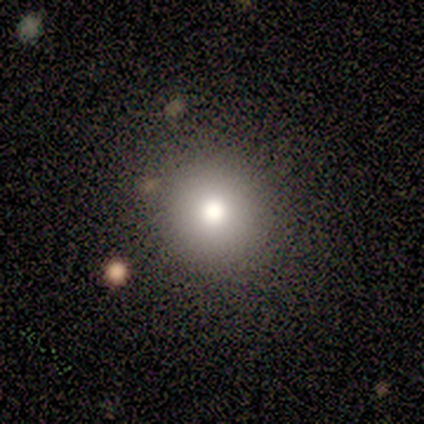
Smooth or featured? 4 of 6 (67%) said smooth. How rounded? 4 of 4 (100%) said round. Merging? 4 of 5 (80%) said none.